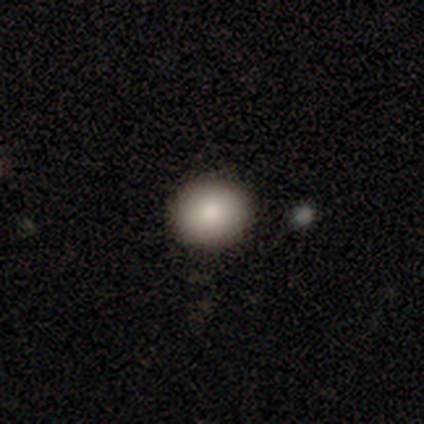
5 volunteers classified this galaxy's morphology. This is clearly a smooth galaxy (100%). How rounded: clearly round (80%). Merging: clearly none (100%).